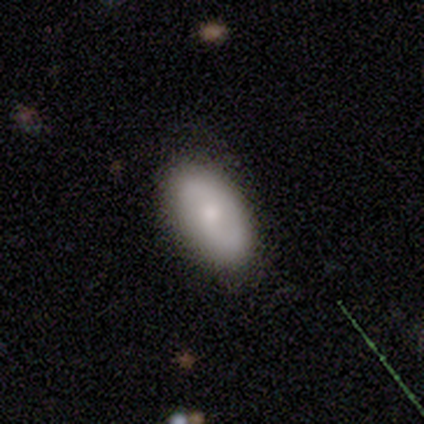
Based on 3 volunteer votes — A smooth galaxy with no disk features (100%) that is in between round and cigar-shaped (100%).

Vote fractions:
- Smooth or featured? smooth: 100% / featured or disk: 0% / star or artifact: 0%
- How rounded? in between: 100% / round: 0% / cigar-shaped: 0%
- Merging? none: 67% / minor disturbance: 33% / major disturbance: 0% / merger: 0%